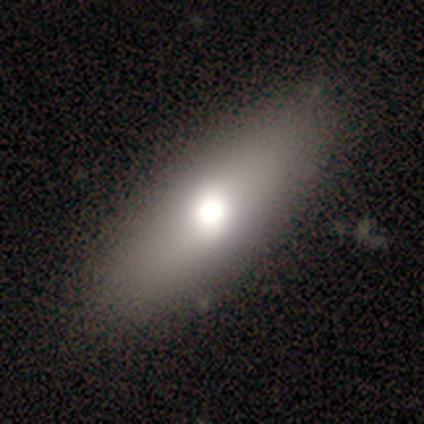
Smooth or featured? 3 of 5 (60%) said smooth. How rounded? 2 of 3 (67%) said cigar-shaped. Merging? 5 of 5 (100%) said none.